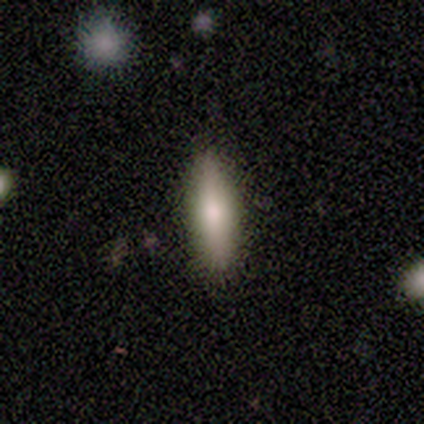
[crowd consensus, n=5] Volunteers were most divided on "smooth or featured": smooth: 60%, featured or disk: 40%, star or artifact: 0%. More confident: how rounded — in between (67%); merging — none (60%).